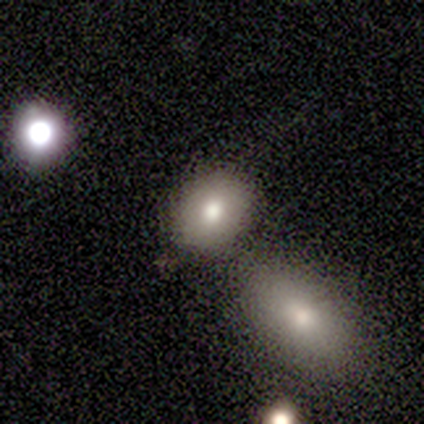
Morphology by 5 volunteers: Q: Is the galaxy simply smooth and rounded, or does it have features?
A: smooth — 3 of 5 (60%).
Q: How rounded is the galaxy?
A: in between — 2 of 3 (67%).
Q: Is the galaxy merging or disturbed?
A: none — 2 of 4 (50%).